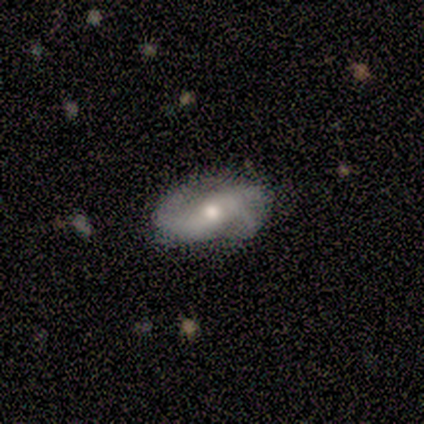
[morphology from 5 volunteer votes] This appears to be a smooth galaxy with no disk features (60%) that is in between round and cigar-shaped (67%). Merging: none (80%).